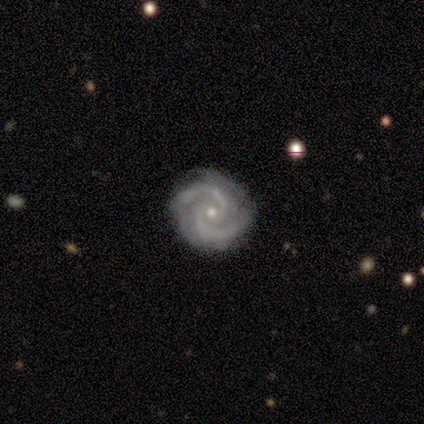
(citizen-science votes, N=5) smooth_or_featured: featured or disk (p=1.00)
disk_edge_on: no (p=1.00)
bar: no (p=0.80) [alt: weak p=0.20]
has_spiral_arms: yes (p=1.00)
spiral_winding: tight (p=0.60) [alt: medium p=0.20]
spiral_arm_count: 2 (p=1.00)
bulge_size: small (p=0.60) [alt: moderate p=0.40]
merging: none (p=0.60) [alt: minor disturbance p=0.20]